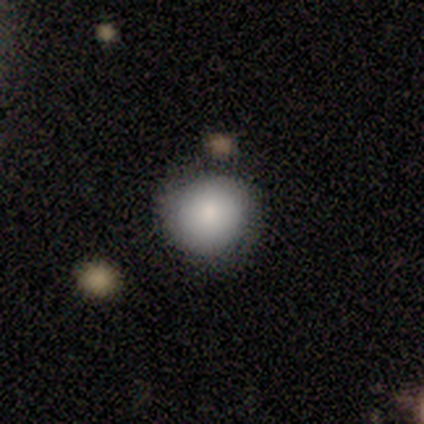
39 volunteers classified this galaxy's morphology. Volunteers were most divided on "smooth or featured": smooth: 82%, featured or disk: 10%, star or artifact: 8%. More confident: how rounded — round (100%); merging — none (89%).